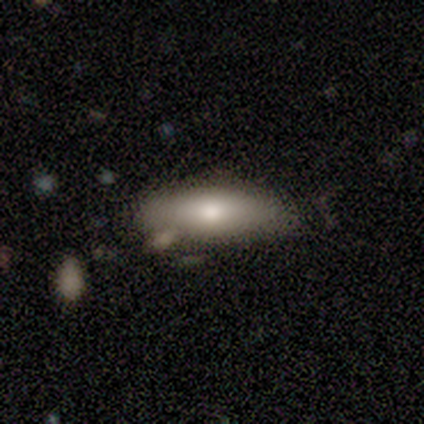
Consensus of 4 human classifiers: Smooth or featured: smooth — 100%
How rounded: in between — 100%
Merging: none — 50% (major disturbance — 25%)